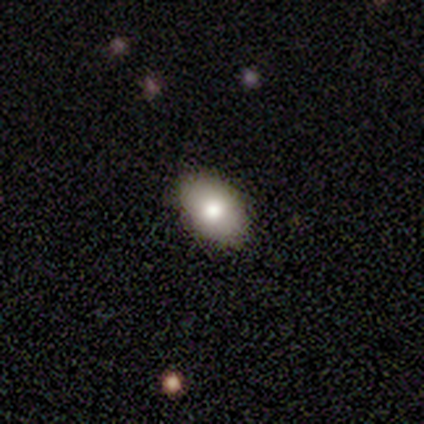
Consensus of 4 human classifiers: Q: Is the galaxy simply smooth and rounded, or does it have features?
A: smooth — 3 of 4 (75%).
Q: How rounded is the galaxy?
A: in between — 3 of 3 (100%).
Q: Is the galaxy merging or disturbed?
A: none — 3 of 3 (100%).